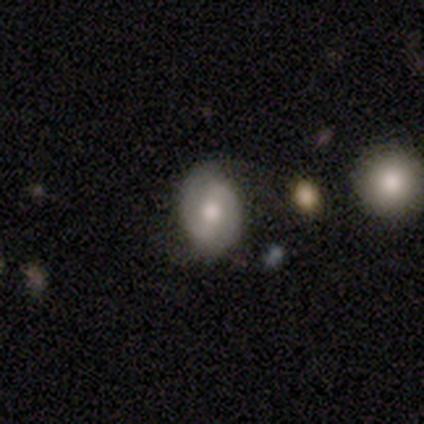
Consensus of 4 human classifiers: Volunteers were most divided on "merging" (2-way tie): none: 50%, minor disturbance: 50%, major disturbance: 0%, merger: 0%. More confident: how rounded — in between (100%); smooth or featured — smooth (75%).